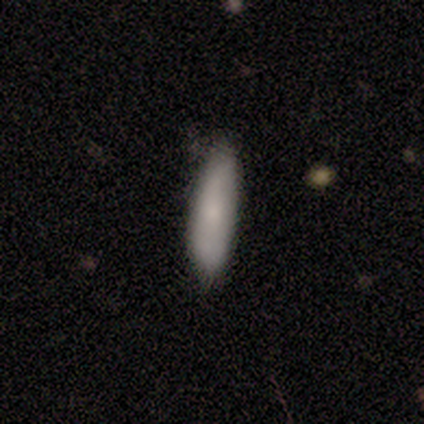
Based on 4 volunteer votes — smooth-or-featured: smooth: 100% | featured or disk: 0% | star or artifact: 0%
  how-rounded: in between: 75% | cigar-shaped: 25% | round: 0%
  merging: none: 75% | minor disturbance: 25% | major disturbance: 0% | merger: 0%